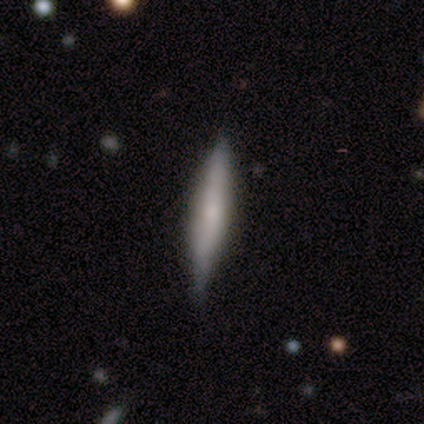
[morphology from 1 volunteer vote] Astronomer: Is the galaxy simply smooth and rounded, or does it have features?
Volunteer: featured or disk — 100%.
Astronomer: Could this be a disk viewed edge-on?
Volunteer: yes — 100%.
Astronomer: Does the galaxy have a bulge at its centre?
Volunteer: rounded — 100%.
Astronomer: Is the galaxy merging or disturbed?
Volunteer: none — 100%.